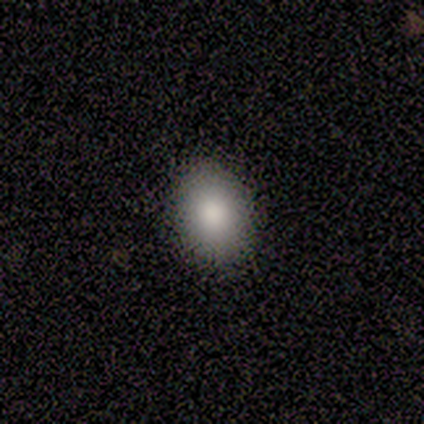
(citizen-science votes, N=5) Morphology: type=smooth (100%); roundness=in between (100%); merging=none (100%).